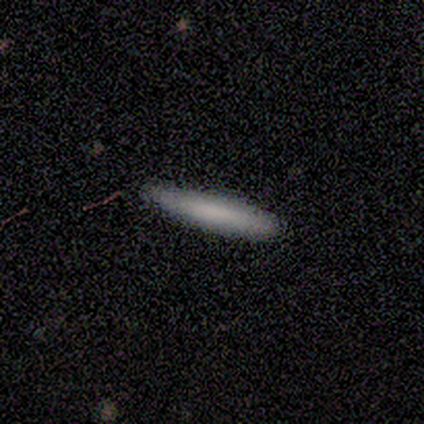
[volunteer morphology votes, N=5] Q: Smooth or featured?
A: smooth (80%); runner-up: featured or disk (20%)
Q: How rounded?
A: cigar-shaped (100%)
Q: Merging?
A: none (80%); runner-up: merger (20%)